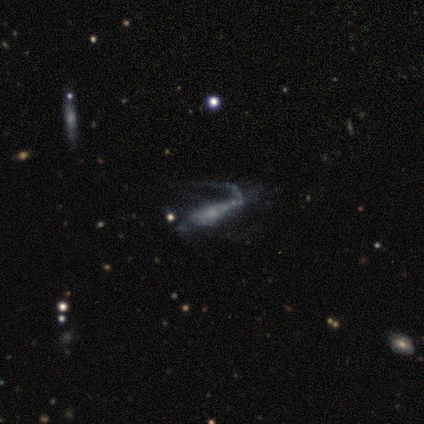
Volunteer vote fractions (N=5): This is clearly a featured or disk galaxy (80%). It is possibly viewed edge-on (50%, tied with no). Edge-on bulge: possibly none (50%, tied with rounded). Merging: marginally minor disturbance (40%, tied with major disturbance).